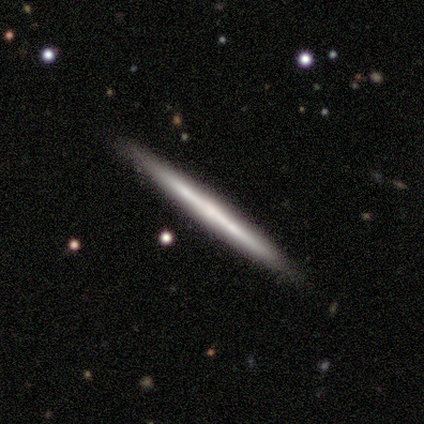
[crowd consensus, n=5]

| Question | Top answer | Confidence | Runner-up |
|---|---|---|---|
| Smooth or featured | featured or disk | 60% | smooth (40%) |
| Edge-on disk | yes | 100% | — |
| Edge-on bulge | none | 100% | — |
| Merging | none | 100% | — |